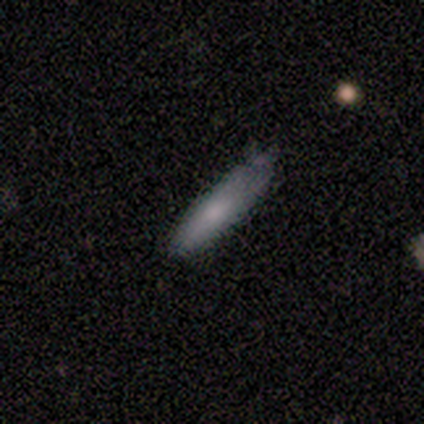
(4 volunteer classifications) Smooth or featured? 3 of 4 (75%) said smooth. How rounded? 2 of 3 (67%) said cigar-shaped. Merging? 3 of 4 (75%) said none.